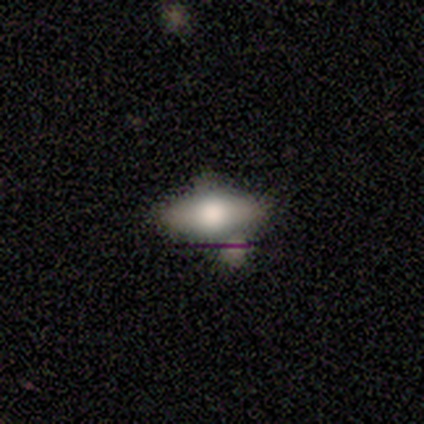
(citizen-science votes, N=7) This is possibly a smooth galaxy (57%). How rounded: clearly in between (100%). Merging: likely none (67%).